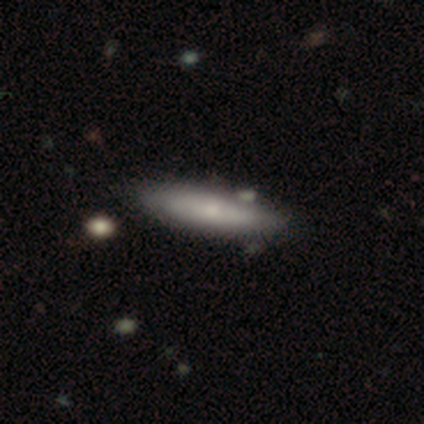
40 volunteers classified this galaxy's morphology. Volunteers were most divided on "smooth or featured": smooth: 68%, featured or disk: 28%, star or artifact: 5%. More confident: how rounded — cigar-shaped (74%); merging — none (74%).